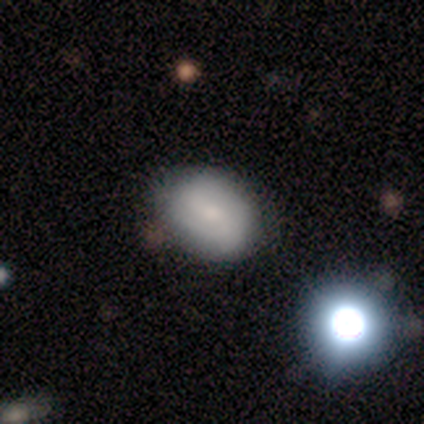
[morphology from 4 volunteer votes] Overall: featured or disk (75%). Edge-on disk: no (100%). Bar: weak (67%; no 33%). Spiral arms: yes (100%). Spiral arm count: 2 (67%; 1 33%). Spiral winding: loose (67%; tight 33%). Bulge size: small (67%; none 33%). Merging: none (100%).